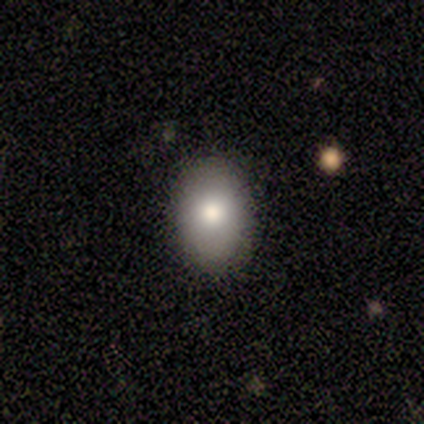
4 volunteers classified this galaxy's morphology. Q: Smooth or featured?
A: smooth (100%)
Q: How rounded?
A: in between (75%); runner-up: round (25%)
Q: Merging?
A: none (100%)